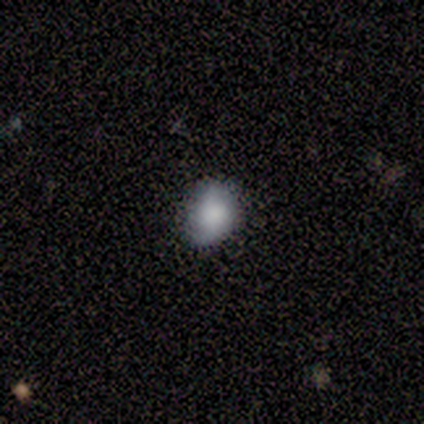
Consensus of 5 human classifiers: A smooth galaxy with no disk features (60%) that is in between round and cigar-shaped (100%).

Vote fractions:
- Smooth or featured? smooth: 60% / featured or disk: 40% / star or artifact: 0%
- How rounded? in between: 100% / round: 0% / cigar-shaped: 0%
- Merging? none: 80% / minor disturbance: 20% / major disturbance: 0% / merger: 0%